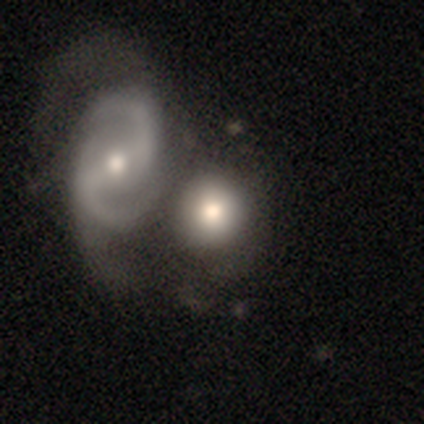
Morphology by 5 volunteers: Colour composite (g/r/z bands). It shows a smooth galaxy with no disk features (60%) that is round (100%). Merging: none (40%, tied with merger).